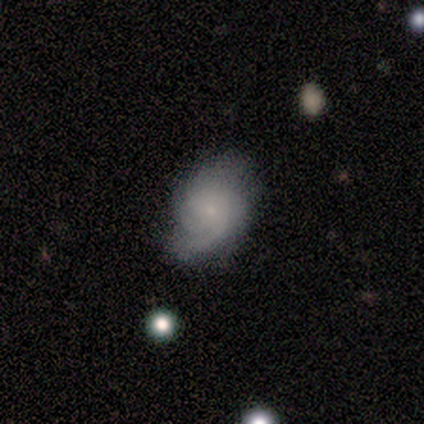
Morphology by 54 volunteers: A featured or disk galaxy (72%) with no bar (82%), 2 (37%) tight (45%) spiral arms (97%) and a small central bulge (85%). Merging: none (60%).